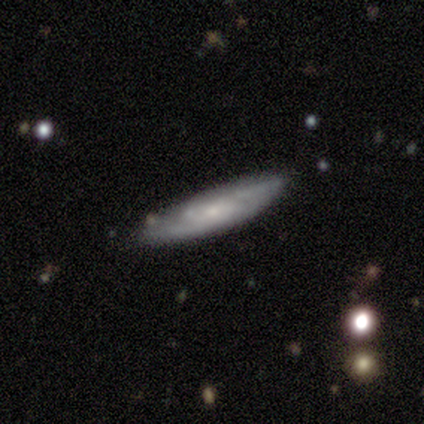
This appears to be a smooth galaxy with no disk features (60%) that is cigar-shaped (100%). Merging: none (60%).